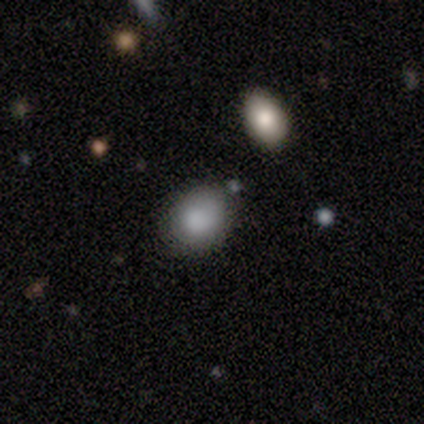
This appears to be a smooth galaxy with no disk features (80%) that is round (50%, tied with in between). Merging: none (75%).